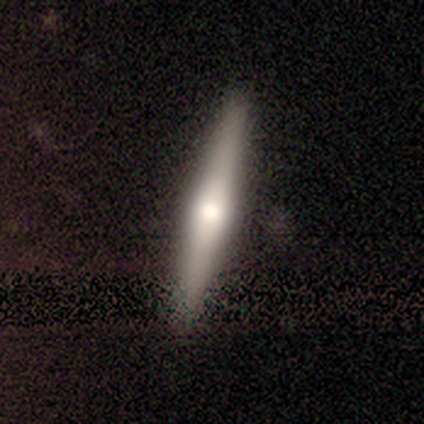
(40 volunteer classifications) Volunteers were most divided on "smooth or featured": featured or disk: 68%, smooth: 30%, star or artifact: 2%. More confident: edge-on disk — yes (100%); merging — none (100%); edge-on bulge — rounded (78%).